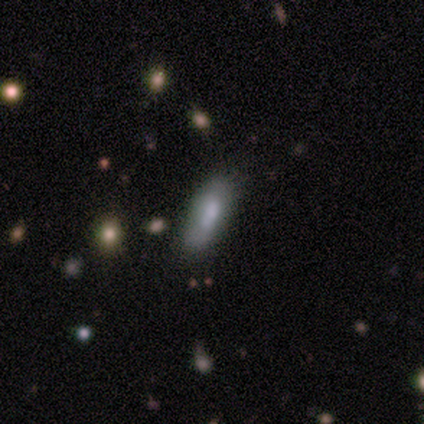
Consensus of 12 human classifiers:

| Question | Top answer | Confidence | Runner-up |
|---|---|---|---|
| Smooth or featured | smooth | 83% | featured or disk (17%) |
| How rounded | in between | 70% | cigar-shaped (30%) |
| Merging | none | 67% | minor disturbance (17%) |